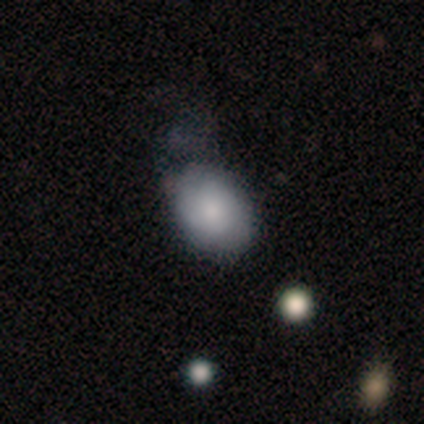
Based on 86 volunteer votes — smooth-or-featured: smooth: 77% | featured or disk: 13% | star or artifact: 10%
  how-rounded: in between: 73% | round: 27% | cigar-shaped: 0%
  merging: none: 44% | minor disturbance: 38% | major disturbance: 14% | merger: 4%